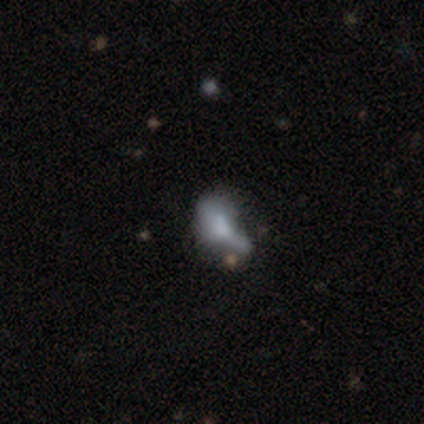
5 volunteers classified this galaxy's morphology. Smooth or featured? smooth (40%, tied with featured or disk)
How rounded? in between (100%)
Merging? none (50%)